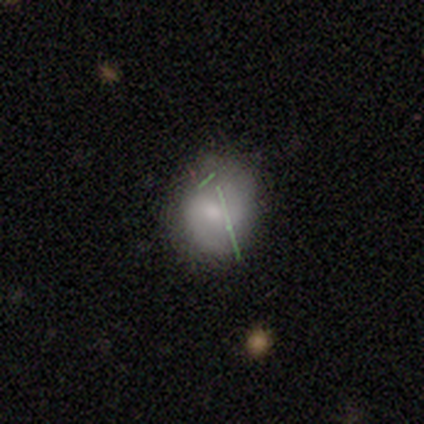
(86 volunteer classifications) Morphology: type=smooth (42%); roundness=round (58%); merging=none (80%).